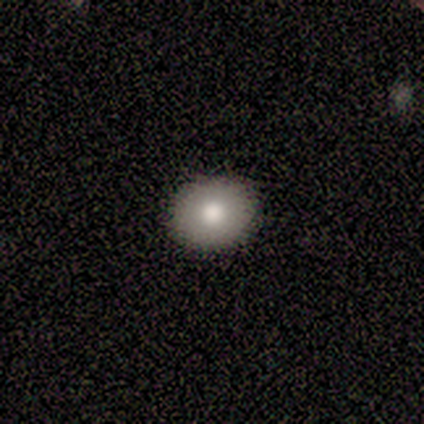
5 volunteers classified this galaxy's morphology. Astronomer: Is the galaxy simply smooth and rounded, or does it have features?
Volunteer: smooth — 100%.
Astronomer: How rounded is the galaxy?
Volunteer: round — 80%.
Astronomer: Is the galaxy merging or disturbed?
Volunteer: none — 100%.